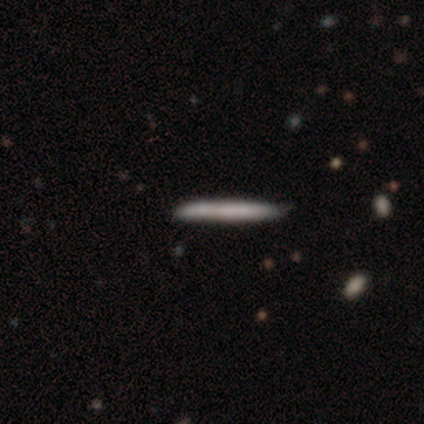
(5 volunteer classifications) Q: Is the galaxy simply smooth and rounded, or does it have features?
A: smooth — 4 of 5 (80%).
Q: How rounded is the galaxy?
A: cigar-shaped — 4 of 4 (100%).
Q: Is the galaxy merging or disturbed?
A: none — 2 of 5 (40%, tied with minor disturbance).